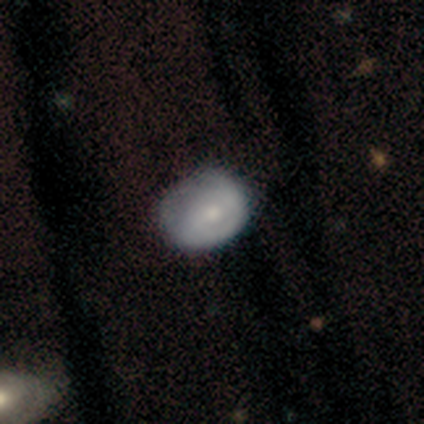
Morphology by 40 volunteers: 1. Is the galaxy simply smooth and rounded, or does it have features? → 60% featured or disk, 38% smooth, 2% star or artifact.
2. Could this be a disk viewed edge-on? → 100% no, 0% yes.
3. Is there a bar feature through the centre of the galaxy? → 58% no, 33% weak, 8% strong.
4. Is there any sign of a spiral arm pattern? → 58% no, 42% yes.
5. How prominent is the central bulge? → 50% moderate, 46% small, 4% large, 0% dominant, 0% none.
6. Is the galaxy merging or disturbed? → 26% none, 15% minor disturbance, 10% major disturbance, 0% merger.